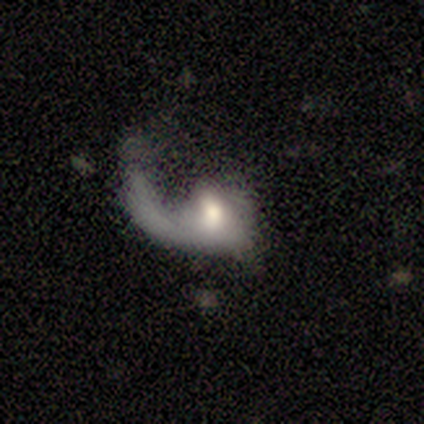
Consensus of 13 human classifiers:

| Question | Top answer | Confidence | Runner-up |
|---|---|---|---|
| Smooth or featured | featured or disk | 69% | smooth (31%) |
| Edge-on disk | no | 89% | yes (11%) |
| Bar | no | 75% | strong (12%) |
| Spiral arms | yes | 50% | tied: no (50%) |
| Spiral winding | loose | 100% | — |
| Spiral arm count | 1 | 100% | — |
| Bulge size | moderate | 62% | large (25%) |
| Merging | major disturbance | 62% | none (23%) |